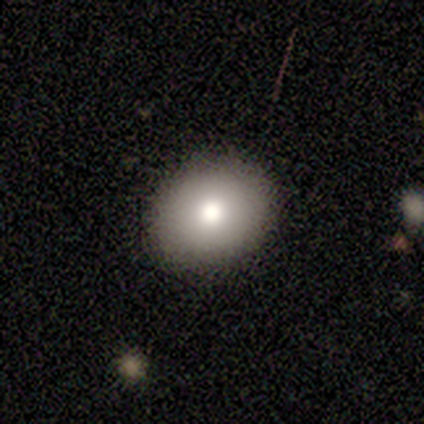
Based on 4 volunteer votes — smooth-or-featured: smooth: 100% | featured or disk: 0% | star or artifact: 0%
  how-rounded: round: 50% (tied) | in between: 50% (tied) | cigar-shaped: 0%
  merging: none: 75% | minor disturbance: 25% | major disturbance: 0% | merger: 0%